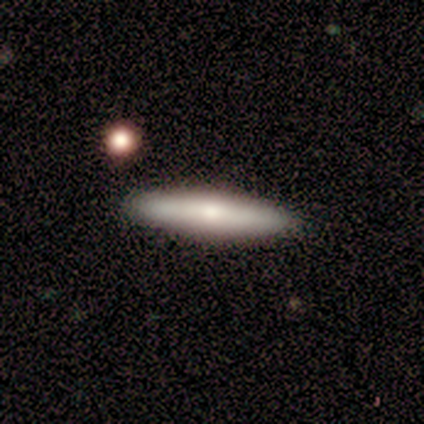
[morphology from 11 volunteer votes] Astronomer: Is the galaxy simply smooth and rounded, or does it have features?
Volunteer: smooth — 82%.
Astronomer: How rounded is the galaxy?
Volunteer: cigar-shaped — 100%.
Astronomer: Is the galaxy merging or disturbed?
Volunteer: none — 91%.